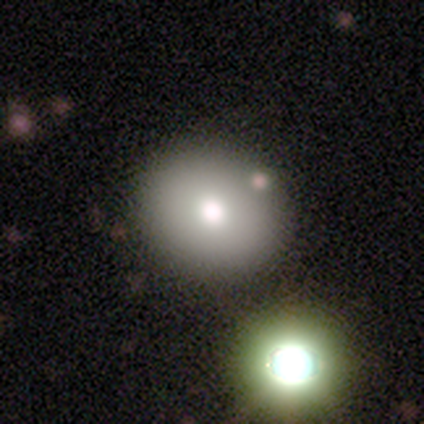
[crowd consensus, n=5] Smooth or featured? featured or disk (60%)
Edge-on disk? no (100%)
Bar? no (100%)
Spiral arms? no (100%)
Bulge size? large (67%)
Merging? none (100%)